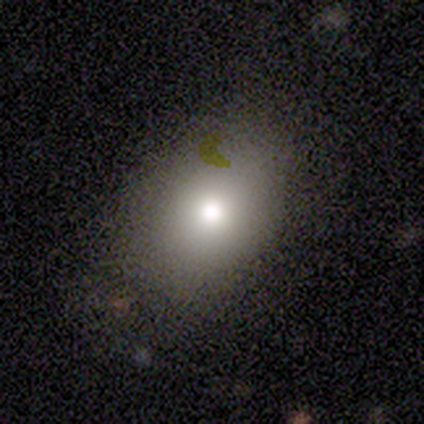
Smooth or featured?
  - smooth: 80% *
  - star or artifact: 20%
  - featured or disk: 0%
How rounded?
  - round: 50% * (tied)
  - in between: 50% * (tied)
  - cigar-shaped: 0%
Merging?
  - none: 50% * (tied)
  - minor disturbance: 50% * (tied)
  - major disturbance: 0%
  - merger: 0%